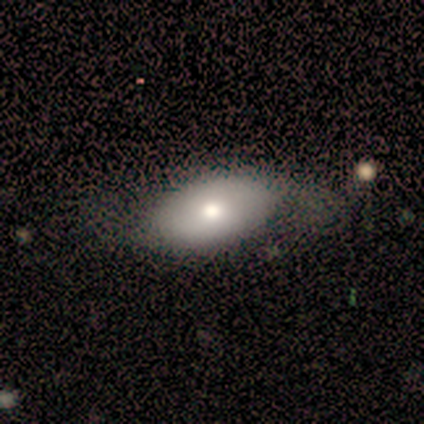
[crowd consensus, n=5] smooth-or-featured: smooth: 60% | featured or disk: 40% | star or artifact: 0%
  how-rounded: in between: 100% | round: 0% | cigar-shaped: 0%
  merging: none: 100% | minor disturbance: 0% | major disturbance: 0% | merger: 0%